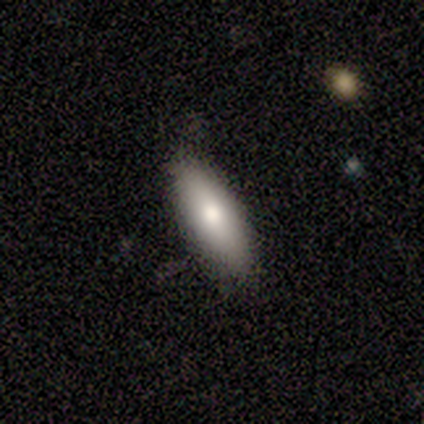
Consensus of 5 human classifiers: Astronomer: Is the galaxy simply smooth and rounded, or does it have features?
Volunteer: smooth — 100%.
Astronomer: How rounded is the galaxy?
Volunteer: in between — 60%.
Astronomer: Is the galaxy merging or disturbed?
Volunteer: none — 80%.